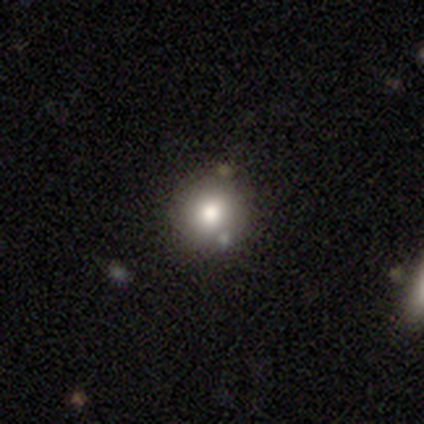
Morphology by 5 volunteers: A smooth galaxy with no disk features (40%, tied with star or artifact) that is round (100%).

Vote fractions:
- Smooth or featured? smooth: 40% (tied) / star or artifact: 40% (tied) / featured or disk: 20%
- How rounded? round: 100% / in between: 0% / cigar-shaped: 0%
- Merging? none: 67% / merger: 33% / minor disturbance: 0% / major disturbance: 0%